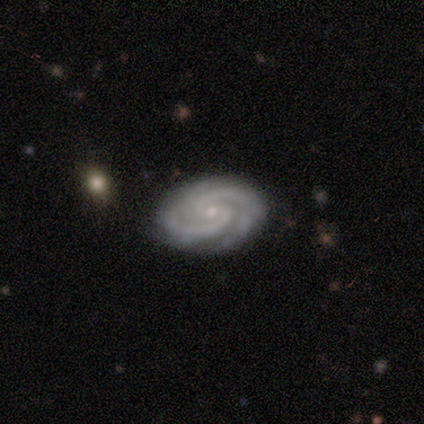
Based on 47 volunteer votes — This is clearly a featured or disk galaxy (96%). It is clearly not viewed edge-on (96%). Bar: likely no (60%). Spiral arm pattern: clearly yes (100%). Spiral arm count: clearly 2 (86%). Spiral winding: likely tight (72%). Central bulge: clearly small (91%). Merging: clearly none (96%).